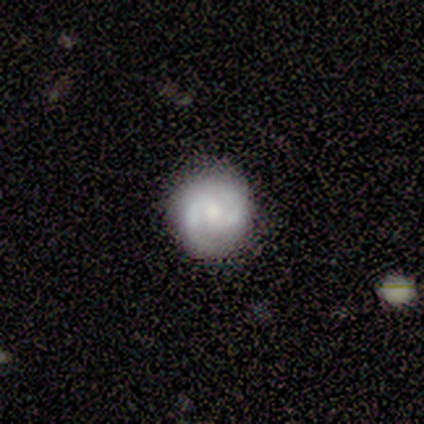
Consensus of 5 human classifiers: Smooth or featured?
  - featured or disk: 100% *
  - smooth: 0%
  - star or artifact: 0%
Edge-on disk?
  - no: 100% *
  - yes: 0%
Bar?
  - no: 80% *
  - strong: 20%
  - weak: 0%
Spiral arms?
  - yes: 100% *
  - no: 0%
Spiral winding?
  - medium: 60% *
  - tight: 40%
  - loose: 0%
Spiral arm count?
  - 2: 100% *
  - 1: 0%
  - 3: 0%
  - 4: 0%
  - more than 4: 0%
  - can't tell: 0%
Bulge size?
  - moderate: 40% * (tied)
  - small: 40% * (tied)
  - none: 20%
  - dominant: 0%
  - large: 0%
Merging?
  - none: 100% *
  - minor disturbance: 0%
  - major disturbance: 0%
  - merger: 0%